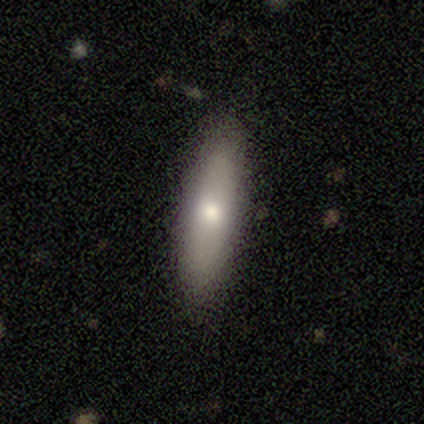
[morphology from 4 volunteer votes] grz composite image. It shows a smooth galaxy with no disk features (75%) that is in between round and cigar-shaped (100%). Merging: none (50%, tied with minor disturbance).